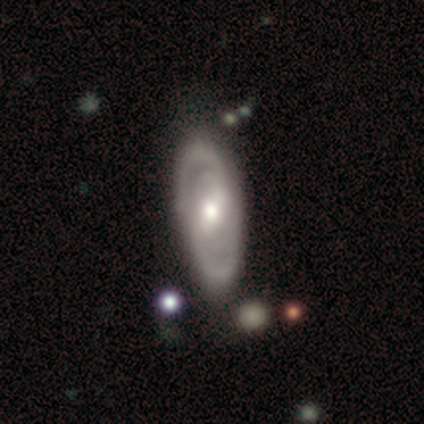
Q: Smooth or featured?
A: featured or disk (100%)
Q: Edge-on disk?
A: no (100%)
Q: Bar?
A: strong (40%); tied with: weak (40%)
Q: Spiral arms?
A: no (60%); runner-up: yes (40%)
Q: Bulge size?
A: moderate (80%); runner-up: large (20%)
Q: Merging?
A: none (80%); runner-up: minor disturbance (20%)